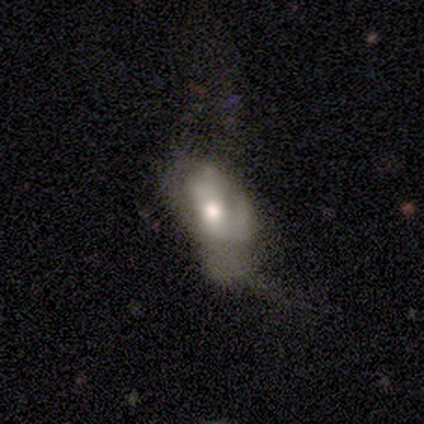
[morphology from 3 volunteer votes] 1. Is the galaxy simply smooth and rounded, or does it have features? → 67% smooth, 33% featured or disk, 0% star or artifact.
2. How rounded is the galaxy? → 100% in between, 0% round, 0% cigar-shaped.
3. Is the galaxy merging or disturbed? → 67% major disturbance, 33% minor disturbance, 0% none, 0% merger.